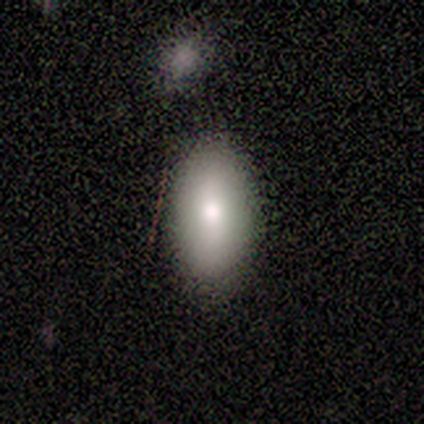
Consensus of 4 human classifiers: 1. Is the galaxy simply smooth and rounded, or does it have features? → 75% smooth, 25% star or artifact, 0% featured or disk.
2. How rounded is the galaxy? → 100% in between, 0% round, 0% cigar-shaped.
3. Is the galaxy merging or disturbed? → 100% none, 0% minor disturbance, 0% major disturbance, 0% merger.